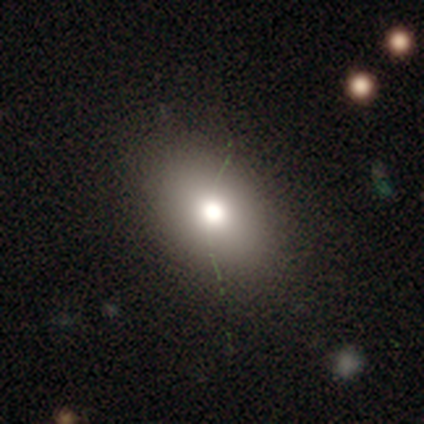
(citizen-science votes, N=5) Smooth or featured: smooth — 80% (star or artifact — 20%)
How rounded: in between — 100%
Merging: none — 100%